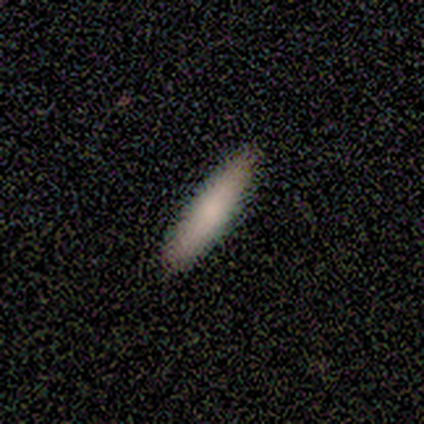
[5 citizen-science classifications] Smooth or featured: smooth — 80% (featured or disk — 20%)
How rounded: cigar-shaped — 75% (in between — 25%)
Merging: none — 80% (merger — 20%)